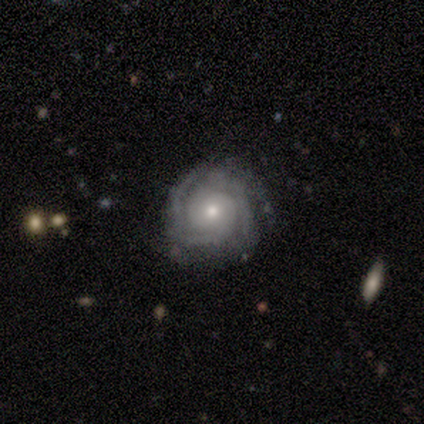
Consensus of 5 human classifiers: Smooth or featured? featured or disk (80%)
Edge-on disk? no (100%)
Bar? weak (50%, tied with no)
Spiral arms? yes (100%)
Spiral winding? tight (75%)
Spiral arm count? can't tell (75%)
Bulge size? small (75%)
Merging? none (100%)